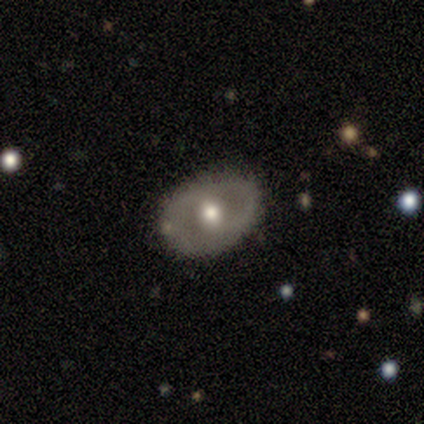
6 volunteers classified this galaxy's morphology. Smooth or featured? featured or disk (83%)
Edge-on disk? no (100%)
Bar? no (60%)
Spiral arms? no (80%)
Bulge size? moderate (80%)
Merging? none (83%)